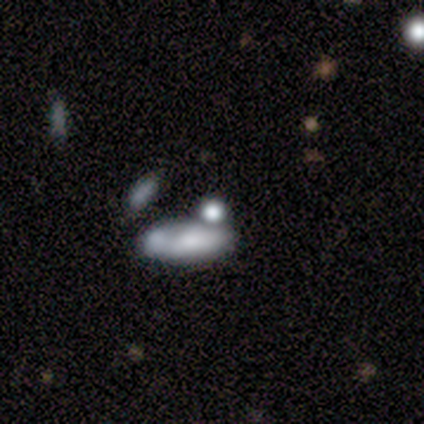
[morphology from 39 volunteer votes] A smooth galaxy with no disk features (54%) that is in between round and cigar-shaped (67%). Merging: merger (52%).